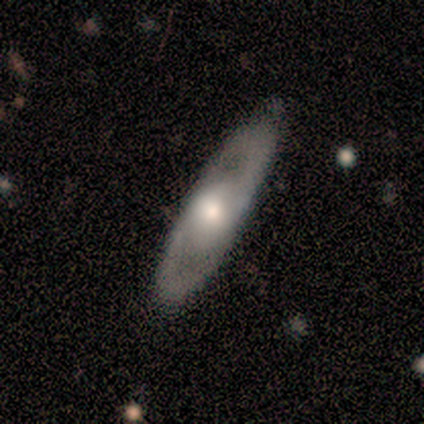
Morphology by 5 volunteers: Overall: featured or disk (60%; smooth 20%). Edge-on disk: no (100%). Bar: no (100%). Spiral arms: yes (67%; no 33%). Spiral arm count: 2 (100%). Spiral winding: medium (100%). Bulge size: large (67%; moderate 33%). Merging: none (100%).